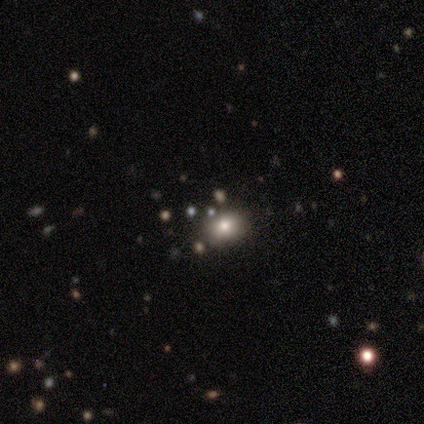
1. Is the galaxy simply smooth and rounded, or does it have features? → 56% smooth, 33% star or artifact, 11% featured or disk.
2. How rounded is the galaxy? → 80% in between, 20% round, 0% cigar-shaped.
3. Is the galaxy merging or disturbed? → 83% none, 17% merger, 0% minor disturbance, 0% major disturbance.